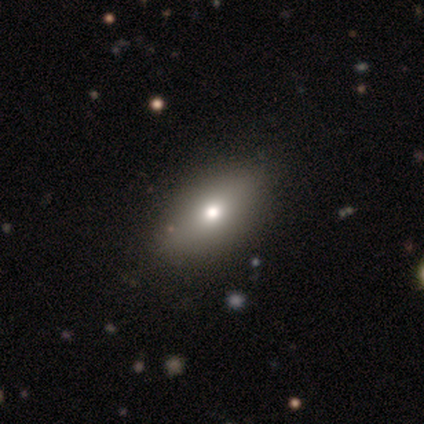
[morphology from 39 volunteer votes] Smooth or featured? 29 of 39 (74%) said smooth. How rounded? 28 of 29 (97%) said in between. Merging? 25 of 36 (69%) said none.